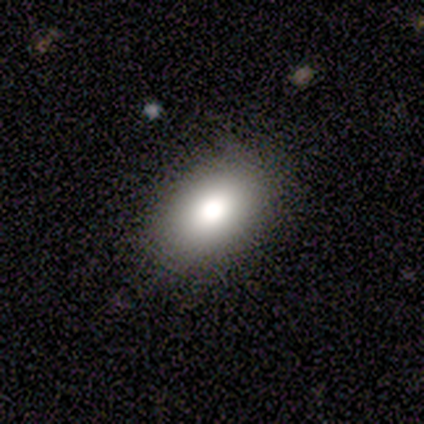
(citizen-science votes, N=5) This appears to be a smooth galaxy with no disk features (100%) that is in between round and cigar-shaped (100%). Merging: none (80%).